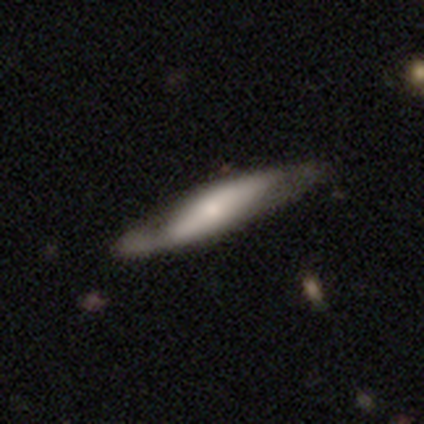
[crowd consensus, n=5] This appears to be a featured or disk galaxy (60%) with no bar (100%), 2 (100%) tight (50%, tied with loose) spiral arms (100%) and a moderate central bulge (50%, tied with small). Merging: none (40%, tied with minor disturbance).